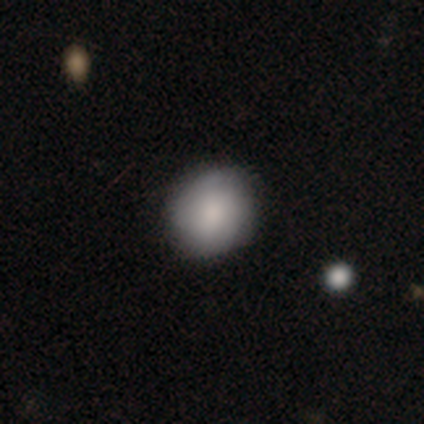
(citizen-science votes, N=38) Overall: smooth (82%). How rounded: round (84%). Merging: none (86%).